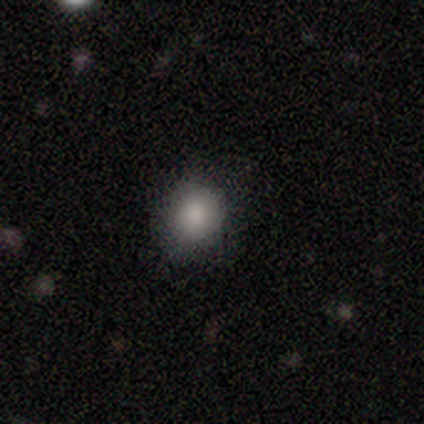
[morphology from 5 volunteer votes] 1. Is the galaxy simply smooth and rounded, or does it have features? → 80% smooth, 20% star or artifact, 0% featured or disk.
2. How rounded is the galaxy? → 50% round (tied), 50% in between (tied), 0% cigar-shaped.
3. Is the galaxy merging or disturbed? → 50% none (tied), 50% minor disturbance (tied), 0% major disturbance, 0% merger.